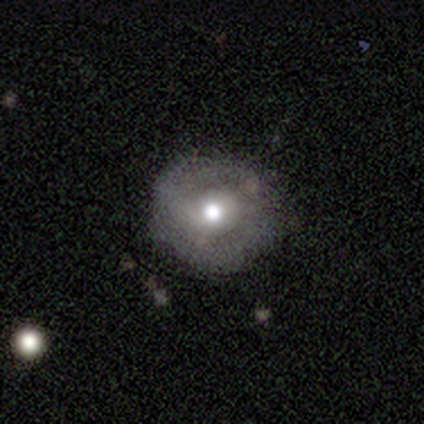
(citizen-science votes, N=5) This appears to be a smooth galaxy with no disk features (100%) that is round (80%). Merging: none (80%).